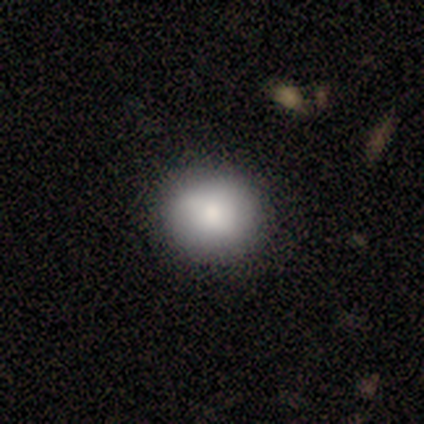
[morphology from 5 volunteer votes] Overall: smooth (80%). How rounded: round (75%). Merging: none (100%).